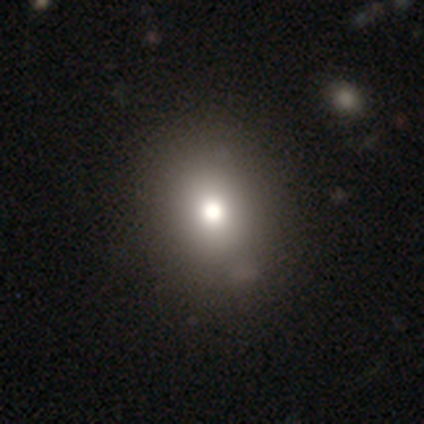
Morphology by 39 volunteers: smooth_or_featured: smooth (p=0.79) [alt: star or artifact p=0.15]
how_rounded: round (p=0.55) [alt: in between p=0.45]
merging: none (p=0.55) [alt: minor disturbance p=0.06]